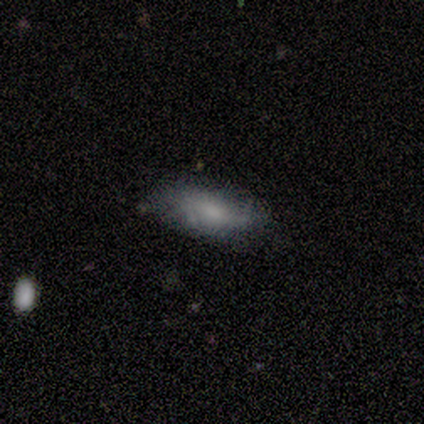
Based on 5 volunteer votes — smooth-or-featured: smooth: 60% | featured or disk: 40% | star or artifact: 0%
  how-rounded: in between: 100% | round: 0% | cigar-shaped: 0%
  merging: none: 80% | minor disturbance: 20% | major disturbance: 0% | merger: 0%